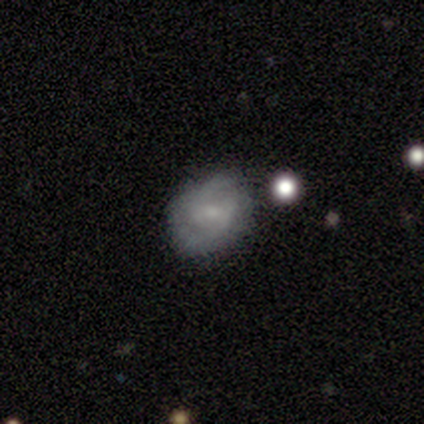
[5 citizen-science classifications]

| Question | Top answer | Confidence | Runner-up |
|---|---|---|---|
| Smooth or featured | featured or disk | 80% | smooth (20%) |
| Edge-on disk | no | 100% | — |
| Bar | weak | 50% | tied: no (50%) |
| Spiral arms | yes | 75% | no (25%) |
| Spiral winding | medium | 100% | — |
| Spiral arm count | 2 | 100% | — |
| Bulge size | small | 50% | moderate (25%) |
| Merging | none | 60% | minor disturbance (40%) |